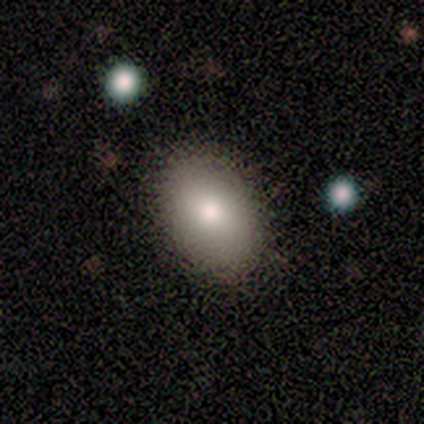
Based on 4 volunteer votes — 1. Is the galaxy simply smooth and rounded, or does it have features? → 100% smooth, 0% featured or disk, 0% star or artifact.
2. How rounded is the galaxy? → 100% in between, 0% round, 0% cigar-shaped.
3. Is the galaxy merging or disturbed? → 100% none, 0% minor disturbance, 0% major disturbance, 0% merger.